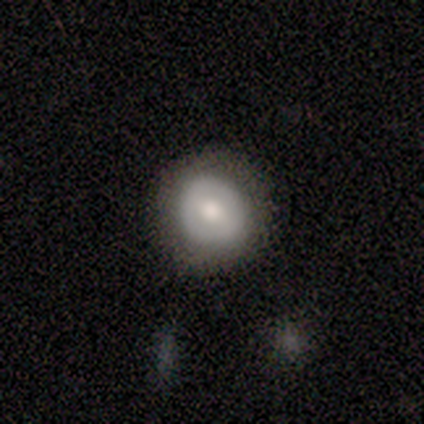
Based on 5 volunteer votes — Smooth or featured: featured or disk — 60% (smooth — 20%)
Edge-on disk: no — 100%
Bar: no — 67% (weak — 33%)
Spiral arms: no — 100%
Bulge size: moderate — 67% (small — 33%)
Merging: none — 100%